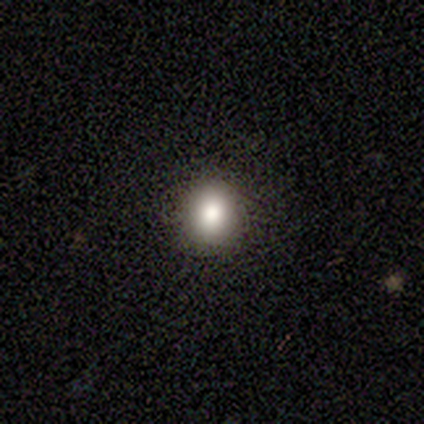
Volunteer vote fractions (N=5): This appears to be a smooth galaxy with no disk features (60%) that is round (67%). Merging: none (100%).